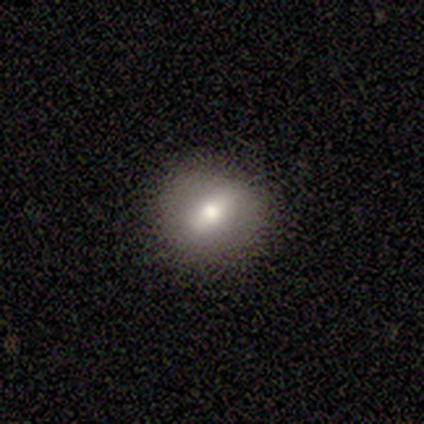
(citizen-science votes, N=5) Smooth or featured?
  - smooth: 100% *
  - featured or disk: 0%
  - star or artifact: 0%
How rounded?
  - round: 80% *
  - in between: 20%
  - cigar-shaped: 0%
Merging?
  - none: 60% *
  - minor disturbance: 20%
  - major disturbance: 20%
  - merger: 0%